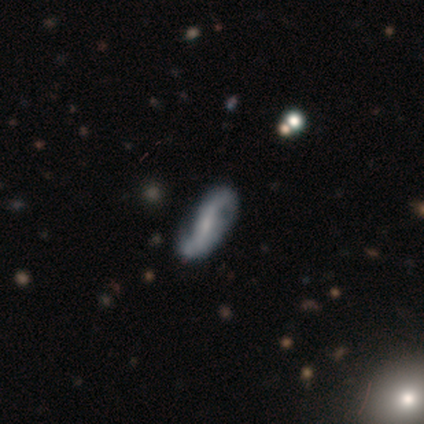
A featured or disk galaxy (80%) with no bar (50%), 2 (100%) tight (50%) spiral arms (100%) and a small central bulge (50%). Merging: none (60%).